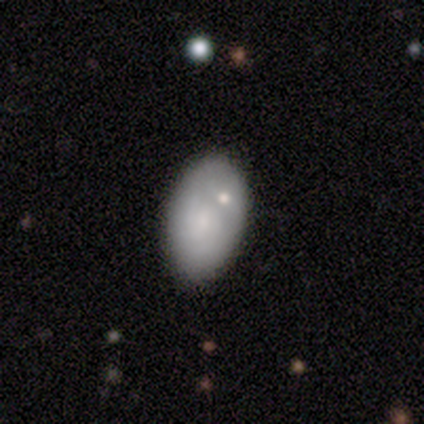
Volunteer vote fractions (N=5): Smooth or featured: featured or disk — 60% (smooth — 40%)
Edge-on disk: no — 100%
Bar: no — 67% (weak — 33%)
Spiral arms: yes — 67% (no — 33%)
Spiral winding: medium — 100%
Spiral arm count: 2 — 50% (tied with can't tell — 50%)
Bulge size: small — 67% (moderate — 33%)
Merging: none — 60% (minor disturbance — 20%)